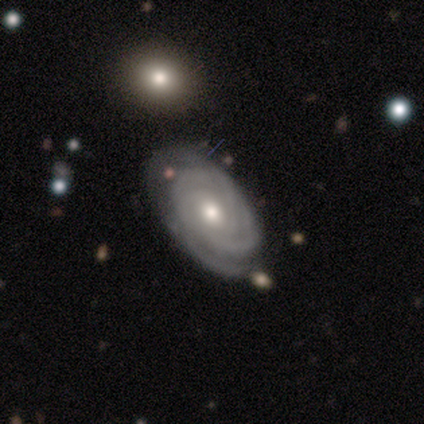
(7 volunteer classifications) A featured or disk galaxy (100%) with no bar (71%), 3 (43%) tight (100%) spiral arms (100%) and a moderate central bulge (71%). Merging: none (86%).